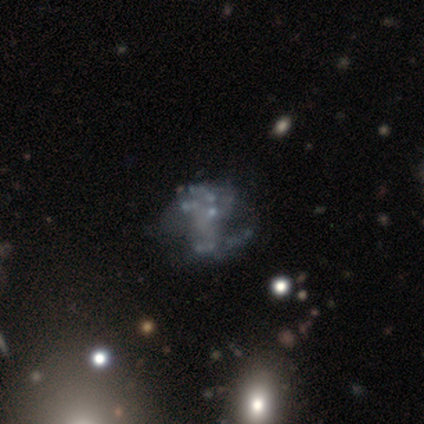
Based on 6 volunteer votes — This appears to be a featured or disk galaxy (50%, tied with star or artifact) with no bar (67%), 2 (100%) tight (50%, tied with medium) spiral arms (67%) and a dominant central bulge (33%, tied with small and none). Merging: none (67%).